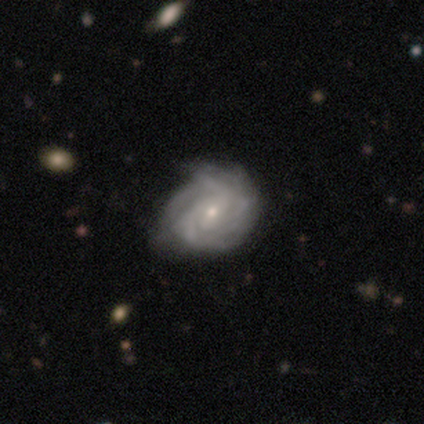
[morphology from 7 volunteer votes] smooth-or-featured: featured or disk: 100% | smooth: 0% | star or artifact: 0%
  disk-edge-on: no: 100% | yes: 0%
    bar: weak: 71% | no: 29% | strong: 0%
    has-spiral-arms: yes: 100% | no: 0%
      spiral-winding: tight: 71% | medium: 29% | loose: 0%
      spiral-arm-count: 2: 71% | 1: 14% | can't tell: 14% | 3: 0% | 4: 0% | more than 4: 0%
    bulge-size: small: 86% | moderate: 14% | dominant: 0% | large: 0% | none: 0%
  merging: none: 71% | minor disturbance: 29% | major disturbance: 0% | merger: 0%